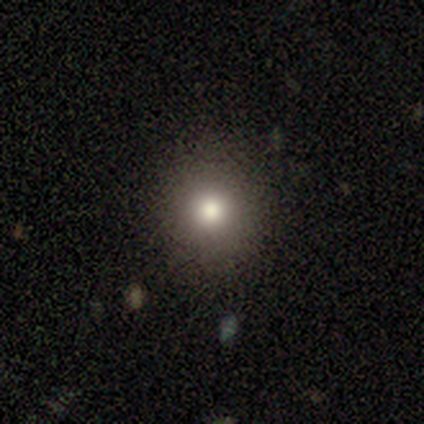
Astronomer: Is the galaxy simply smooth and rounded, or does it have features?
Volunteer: star or artifact — 60% (runner-up: smooth, 40%).